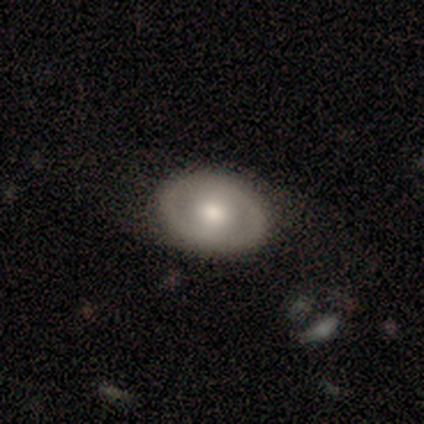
Smooth or featured? smooth (55%)
How rounded? in between (68%)
Merging? none (80%)